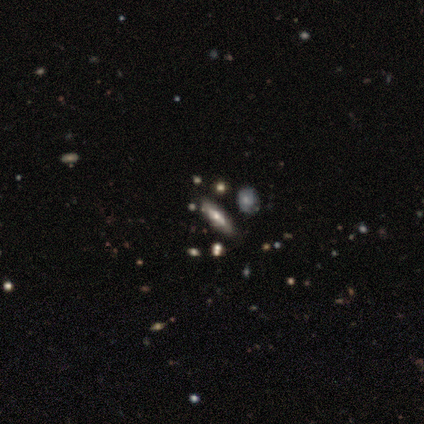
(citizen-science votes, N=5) This is likely a smooth galaxy (60%). How rounded: likely cigar-shaped (67%). Merging: clearly none (80%).